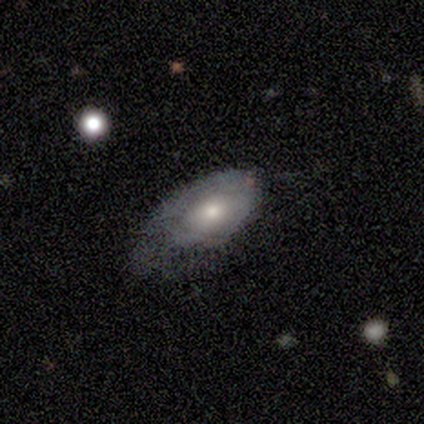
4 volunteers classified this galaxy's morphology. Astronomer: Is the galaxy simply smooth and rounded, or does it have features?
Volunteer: smooth — 50%, tied with featured or disk at 50%.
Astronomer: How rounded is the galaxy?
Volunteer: in between — 100%.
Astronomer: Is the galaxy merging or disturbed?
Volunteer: none — 50%.